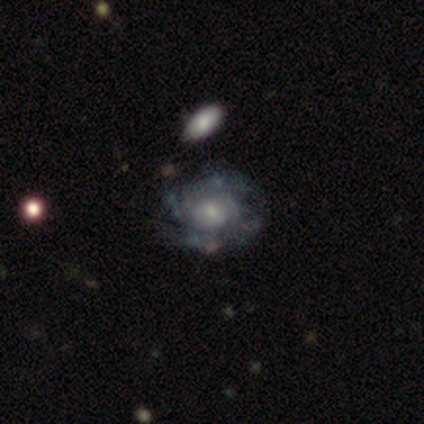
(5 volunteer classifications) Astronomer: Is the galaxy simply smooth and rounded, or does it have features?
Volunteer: featured or disk — 100%.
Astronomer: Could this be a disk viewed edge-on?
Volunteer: no — 80%.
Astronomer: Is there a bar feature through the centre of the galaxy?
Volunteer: no — 75%.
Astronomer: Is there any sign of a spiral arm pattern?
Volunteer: yes — 50%, tied with no at 50%.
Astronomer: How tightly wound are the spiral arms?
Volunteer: tight — 100%.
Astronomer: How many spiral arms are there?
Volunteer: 4 — 50%, tied with can't tell at 50%.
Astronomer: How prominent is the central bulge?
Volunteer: small — 50%.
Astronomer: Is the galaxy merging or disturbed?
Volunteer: none — 80%.